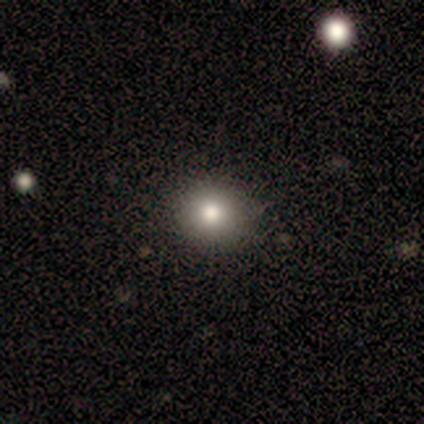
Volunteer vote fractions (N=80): Q: Smooth or featured?
A: smooth (85%); runner-up: star or artifact (9%)
Q: How rounded?
A: round (94%); runner-up: in between (6%)
Q: Merging?
A: none (49%); runner-up: merger (3%)